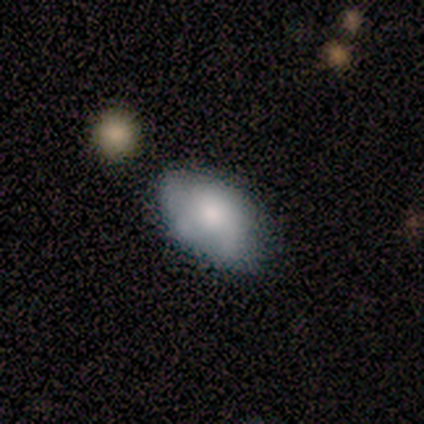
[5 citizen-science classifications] This appears to be a smooth galaxy with no disk features (80%) that is in between round and cigar-shaped (100%). Merging: none (100%).